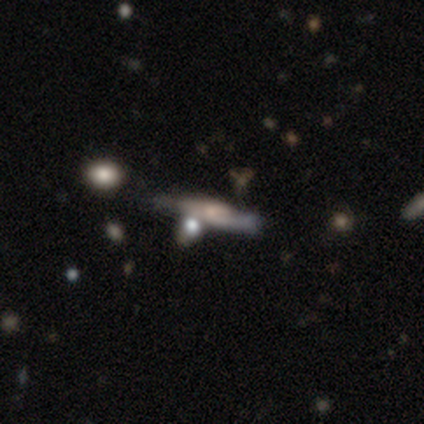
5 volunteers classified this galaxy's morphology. smooth_or_featured: featured or disk (p=0.60) [alt: smooth p=0.40]
disk_edge_on: yes (p=0.67) [alt: no p=0.33]
edge_on_bulge: boxy (p=0.50) [tied with: rounded p=0.50]
merging: minor disturbance (p=0.40) [tied with: merger p=0.40]